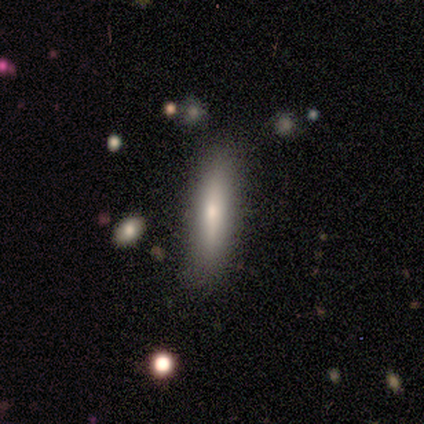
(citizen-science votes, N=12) smooth 75%, featured or disk 25%, star or artifact 0%. Down the decision tree: how rounded — cigar-shaped (78%); merging — none (75%).